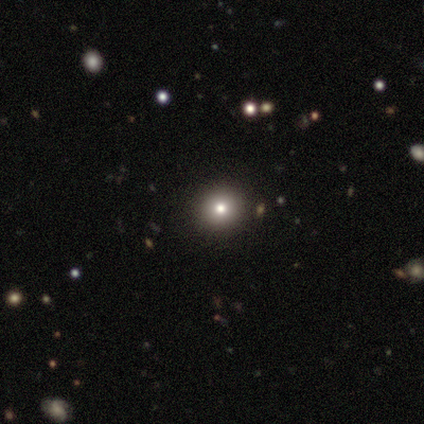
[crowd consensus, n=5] Smooth or featured? 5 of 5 (100%) said smooth. How rounded? 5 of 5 (100%) said round. Merging? 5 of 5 (100%) said none.